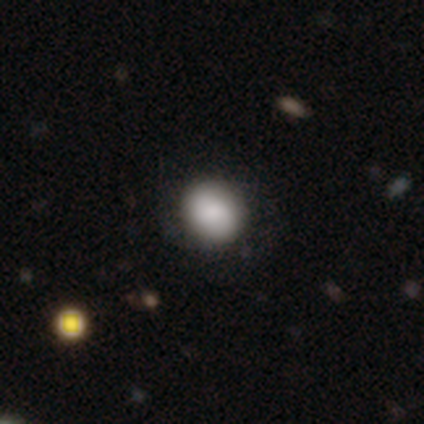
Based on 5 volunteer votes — Overall: smooth (60%; featured or disk 20%). How rounded: round (67%; in between 33%). Merging: none (75%).